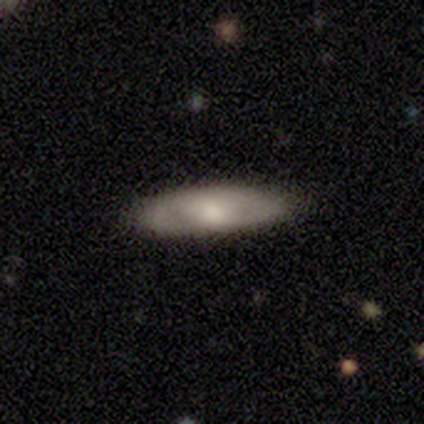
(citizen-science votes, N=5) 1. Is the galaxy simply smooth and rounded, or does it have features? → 60% featured or disk, 20% smooth, 20% star or artifact.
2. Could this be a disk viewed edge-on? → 67% no, 33% yes.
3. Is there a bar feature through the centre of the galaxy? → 50% weak (tied), 50% no (tied), 0% strong.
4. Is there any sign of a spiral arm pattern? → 50% yes (tied), 50% no (tied).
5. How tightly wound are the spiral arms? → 100% medium, 0% tight, 0% loose.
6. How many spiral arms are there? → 100% can't tell, 0% 1, 0% 2, 0% 3, 0% 4, 0% more than 4.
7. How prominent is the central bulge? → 50% moderate (tied), 50% small (tied), 0% dominant, 0% large, 0% none.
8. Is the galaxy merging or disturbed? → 75% none, 25% minor disturbance, 0% major disturbance, 0% merger.